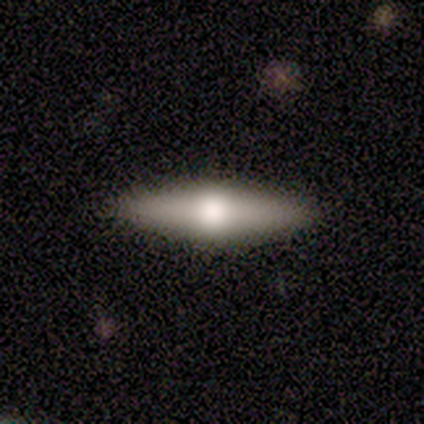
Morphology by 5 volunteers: This appears to be a featured or disk galaxy (80%) viewed edge-on (100%) with a rounded central bulge (100%). Merging: none (100%).